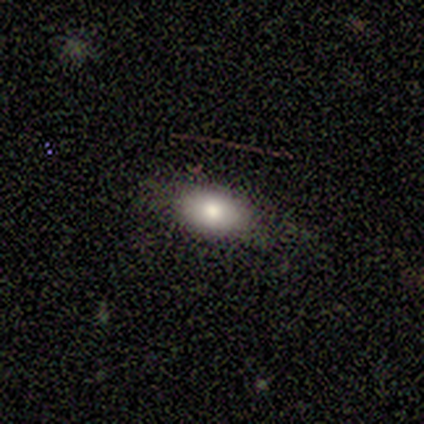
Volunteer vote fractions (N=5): Smooth or featured: featured or disk — 60% (smooth — 40%)
Edge-on disk: no — 67% (yes — 33%)
Bar: no — 100%
Spiral arms: no — 100%
Bulge size: dominant — 50% (tied with moderate — 50%)
Merging: none — 40% (tied with major disturbance — 40%)